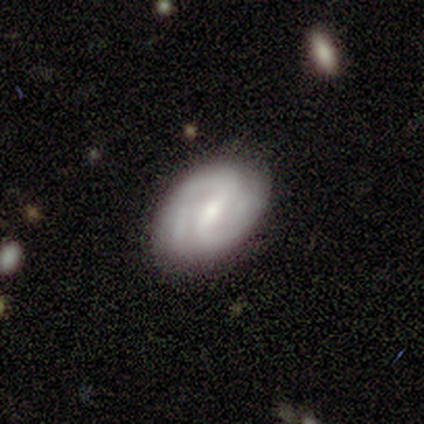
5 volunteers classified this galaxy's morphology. smooth_or_featured: featured or disk (p=0.80) [alt: smooth p=0.20]
disk_edge_on: no (p=1.00)
bar: weak (p=0.50) [alt: strong p=0.25]
has_spiral_arms: yes (p=1.00)
spiral_winding: tight (p=0.50) [alt: medium p=0.25]
spiral_arm_count: 2 (p=0.75) [alt: can't tell p=0.25]
bulge_size: moderate (p=0.75) [alt: small p=0.25]
merging: none (p=1.00)